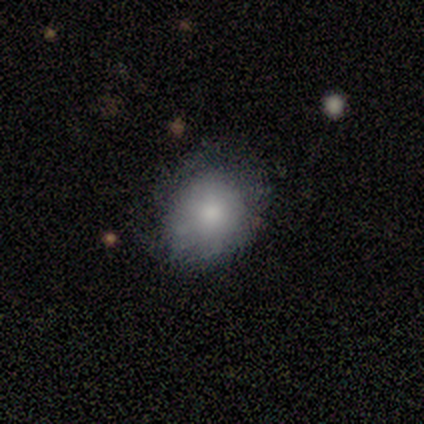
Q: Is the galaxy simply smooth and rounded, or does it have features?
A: smooth — 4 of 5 (80%).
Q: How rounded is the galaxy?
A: round — 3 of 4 (75%).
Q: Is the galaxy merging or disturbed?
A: none — 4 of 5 (80%).